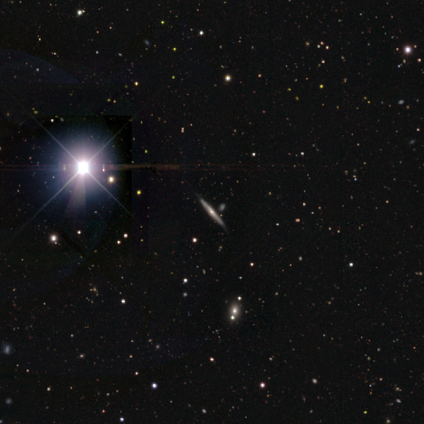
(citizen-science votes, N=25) smooth-or-featured: featured or disk: 64% | star or artifact: 28% | smooth: 8%
  disk-edge-on: yes: 94% | no: 6%
    edge-on-bulge: rounded: 80% | none: 20% | boxy: 0%
  merging: none: 94% | minor disturbance: 6% | major disturbance: 0% | merger: 0%